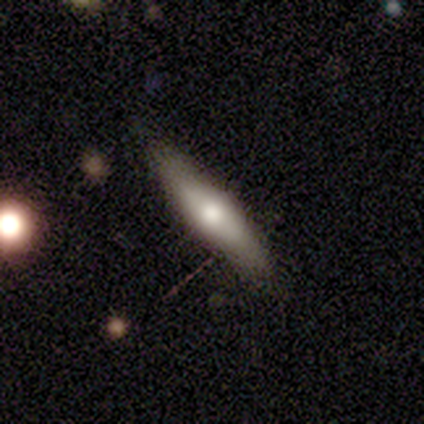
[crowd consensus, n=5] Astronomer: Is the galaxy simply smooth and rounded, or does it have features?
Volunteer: featured or disk — 80%.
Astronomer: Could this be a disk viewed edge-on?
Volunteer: yes — 100%.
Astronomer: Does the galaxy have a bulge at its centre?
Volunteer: rounded — 100%.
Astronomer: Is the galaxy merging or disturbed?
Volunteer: none — 80%.